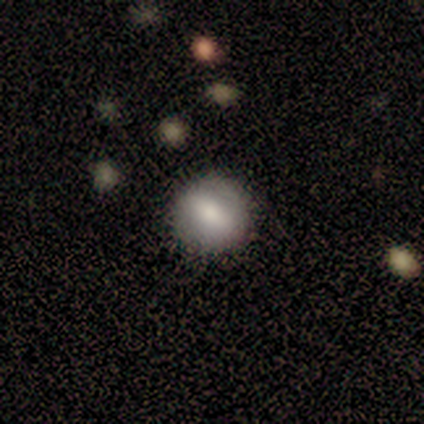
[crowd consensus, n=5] Smooth or featured? smooth (60%)
How rounded? round (100%)
Merging? none (100%)